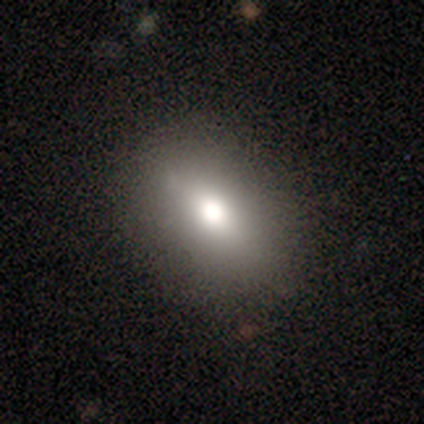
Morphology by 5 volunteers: Smooth or featured? 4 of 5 (80%) said smooth. How rounded? 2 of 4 (50%) said in between. Merging? 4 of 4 (100%) said none.